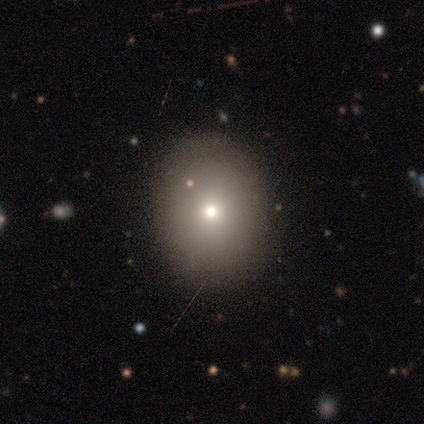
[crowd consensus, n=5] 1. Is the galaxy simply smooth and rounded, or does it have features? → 60% smooth, 20% featured or disk, 20% star or artifact.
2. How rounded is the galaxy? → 100% round, 0% in between, 0% cigar-shaped.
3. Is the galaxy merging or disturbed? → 100% none, 0% minor disturbance, 0% major disturbance, 0% merger.